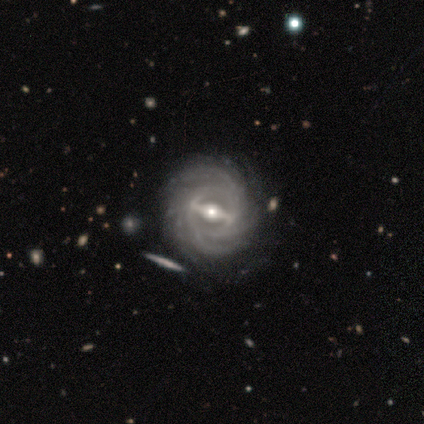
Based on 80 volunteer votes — featured or disk 98%, smooth 1%, star or artifact 1%. Down the decision tree: edge-on disk — no (96%); bar — strong (77%); spiral arms — yes (97%); spiral arm count — more than 4 (32%); spiral winding — tight (71%); bulge size — moderate (67%); merging — none (39%).